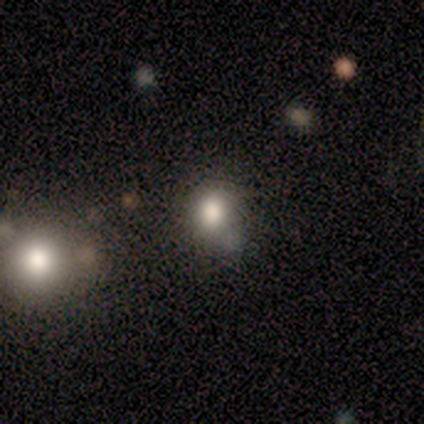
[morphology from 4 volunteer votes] Smooth or featured? smooth (100%)
How rounded? round (50%, tied with in between)
Merging? none (100%)